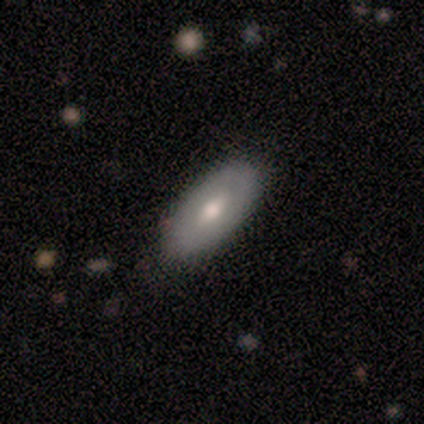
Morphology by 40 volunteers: smooth-or-featured: smooth: 57% | featured or disk: 30% | star or artifact: 12%
  how-rounded: in between: 87% | cigar-shaped: 9% | round: 4%
  merging: none: 89% | minor disturbance: 11% | major disturbance: 0% | merger: 0%